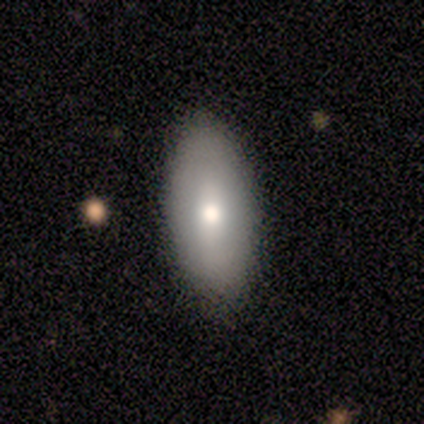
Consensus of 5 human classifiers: Q: Smooth or featured?
A: smooth (100%)
Q: How rounded?
A: in between (80%); runner-up: round (20%)
Q: Merging?
A: none (80%); runner-up: merger (20%)